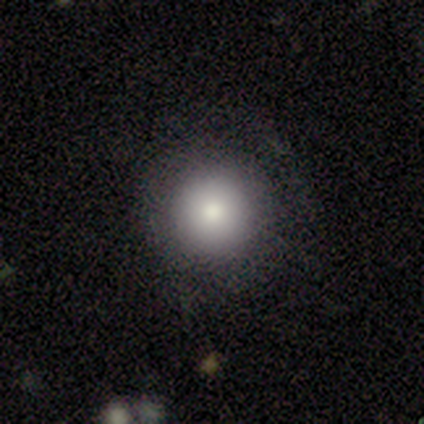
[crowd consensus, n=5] A smooth galaxy with no disk features (60%) that is round (100%).

Vote fractions:
- Smooth or featured? smooth: 60% / star or artifact: 40% / featured or disk: 0%
- How rounded? round: 100% / in between: 0% / cigar-shaped: 0%
- Merging? none: 100% / minor disturbance: 0% / major disturbance: 0% / merger: 0%